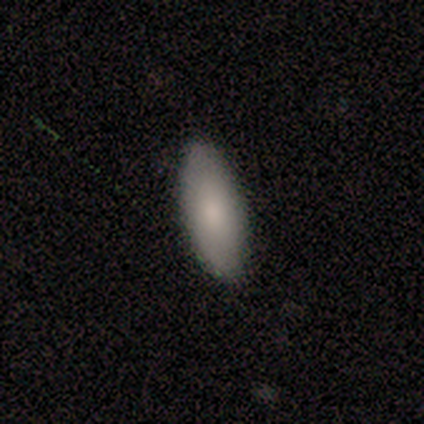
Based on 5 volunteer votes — This is clearly a smooth galaxy (100%). How rounded: clearly in between (100%). Merging: clearly none (80%).